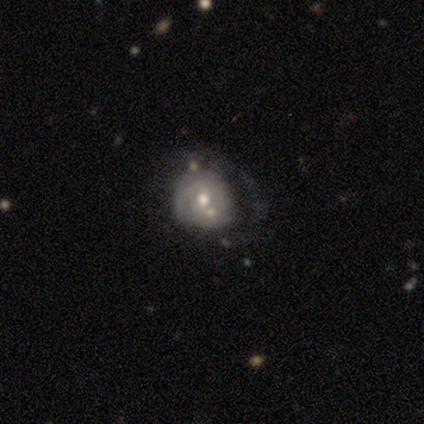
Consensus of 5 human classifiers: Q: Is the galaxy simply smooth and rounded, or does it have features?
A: featured or disk — 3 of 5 (60%).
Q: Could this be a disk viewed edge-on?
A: no — 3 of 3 (100%).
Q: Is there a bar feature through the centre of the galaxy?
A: no — 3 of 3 (100%).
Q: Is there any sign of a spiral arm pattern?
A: yes — 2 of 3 (67%).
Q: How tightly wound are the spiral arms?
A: tight — 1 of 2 (50%, tied with medium).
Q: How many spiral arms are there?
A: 2 — 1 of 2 (50%, tied with can't tell).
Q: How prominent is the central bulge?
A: moderate — 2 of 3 (67%).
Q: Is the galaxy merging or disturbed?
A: major disturbance — 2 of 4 (50%).